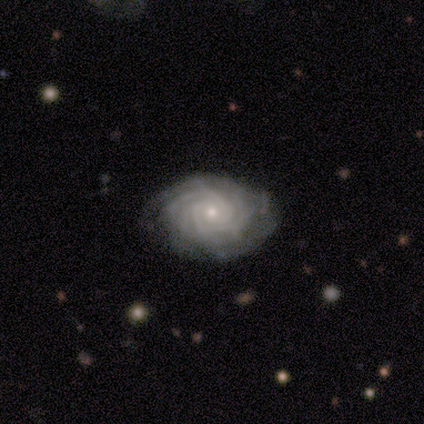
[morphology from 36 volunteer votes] featured or disk 83%, smooth 8%, star or artifact 8%. Down the decision tree: edge-on disk — no (100%); bar — no (70%); spiral arms — yes (97%); spiral arm count — more than 4 (28%, tied with can't tell); spiral winding — tight (83%); bulge size — small (80%); merging — none (94%).